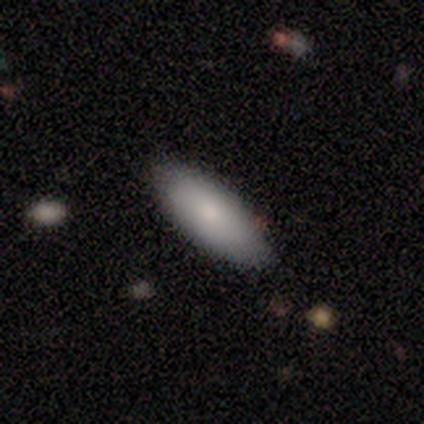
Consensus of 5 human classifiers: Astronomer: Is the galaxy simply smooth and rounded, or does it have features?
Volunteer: smooth — 80%.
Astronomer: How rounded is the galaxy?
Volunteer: in between — 75%.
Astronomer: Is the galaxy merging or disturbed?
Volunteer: none — 100%.